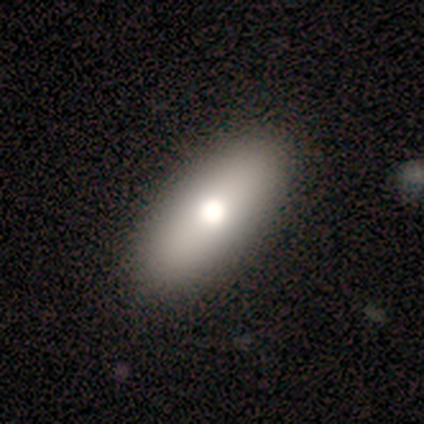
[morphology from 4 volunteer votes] Smooth or featured? smooth (100%)
How rounded? in between (100%)
Merging? none (100%)